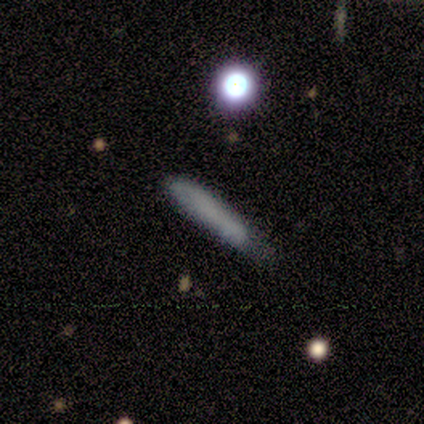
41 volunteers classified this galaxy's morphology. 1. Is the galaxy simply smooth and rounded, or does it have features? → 71% smooth, 27% featured or disk, 2% star or artifact.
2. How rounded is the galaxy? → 93% cigar-shaped, 7% in between, 0% round.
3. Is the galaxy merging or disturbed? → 55% minor disturbance, 40% none, 2% major disturbance, 2% merger.